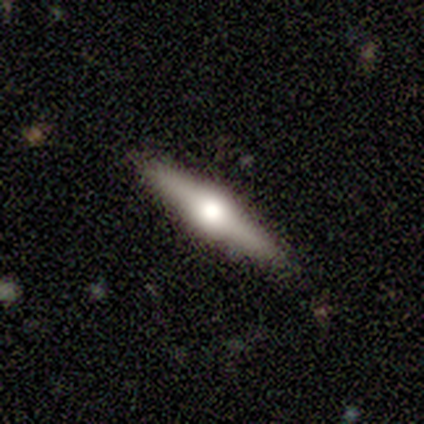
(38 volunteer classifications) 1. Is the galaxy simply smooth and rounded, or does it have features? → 74% featured or disk, 26% smooth, 0% star or artifact.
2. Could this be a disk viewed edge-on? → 96% yes, 4% no.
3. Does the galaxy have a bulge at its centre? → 96% rounded, 4% boxy, 0% none.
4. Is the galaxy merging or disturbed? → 84% none, 13% minor disturbance, 3% major disturbance, 0% merger.